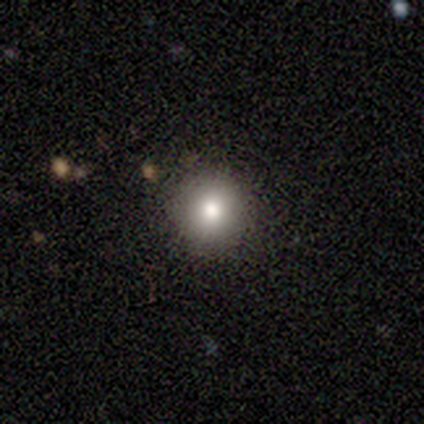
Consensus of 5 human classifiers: This appears to be a smooth galaxy with no disk features (60%) that is round (100%). Merging: none (75%).